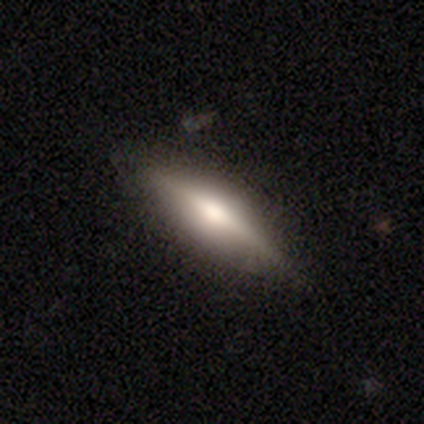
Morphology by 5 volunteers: smooth-or-featured: smooth: 40% (tied) | featured or disk: 40% (tied) | star or artifact: 20%
  how-rounded: in between: 100% | round: 0% | cigar-shaped: 0%
  merging: none: 75% | minor disturbance: 25% | major disturbance: 0% | merger: 0%